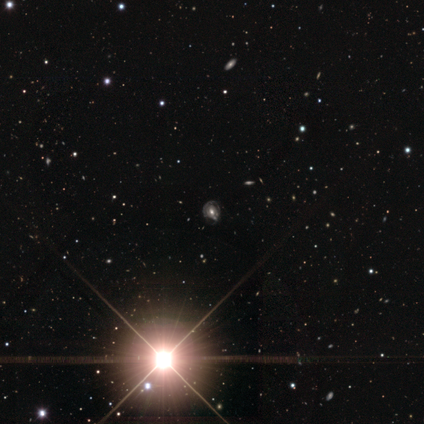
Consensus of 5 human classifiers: Smooth or featured? featured or disk (40%, tied with star or artifact)
Edge-on disk? no (100%)
Bar? no (100%)
Spiral arms? no (100%)
Bulge size? moderate (100%)
Merging? major disturbance (67%)